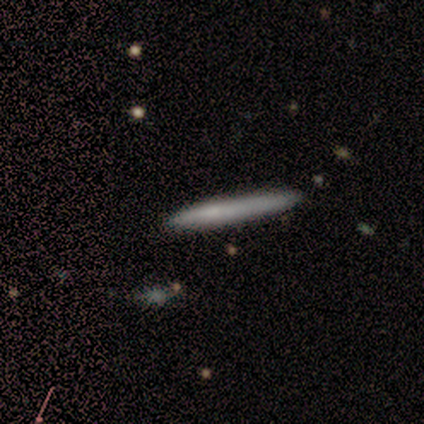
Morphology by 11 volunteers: Overall: smooth (82%). How rounded: cigar-shaped (100%). Merging: none (91%).